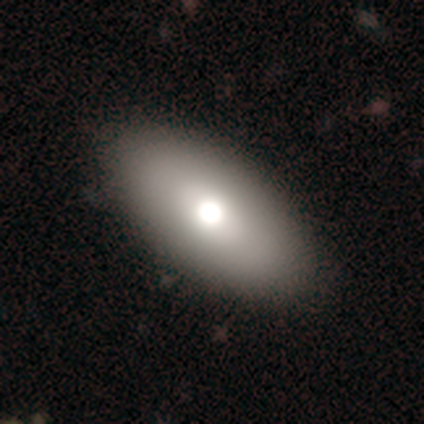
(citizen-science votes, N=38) This appears to be a smooth galaxy with no disk features (63%) that is in between round and cigar-shaped (92%). Merging: none (62%).